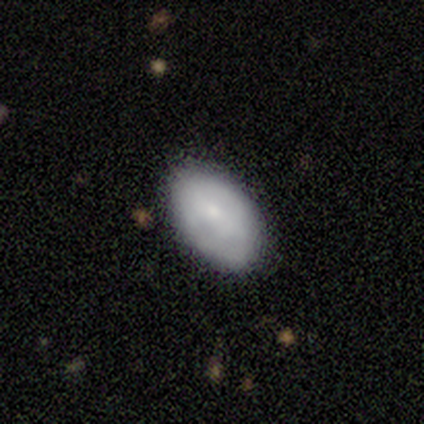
Smooth or featured? smooth (100%)
How rounded? in between (100%)
Merging? none (60%)